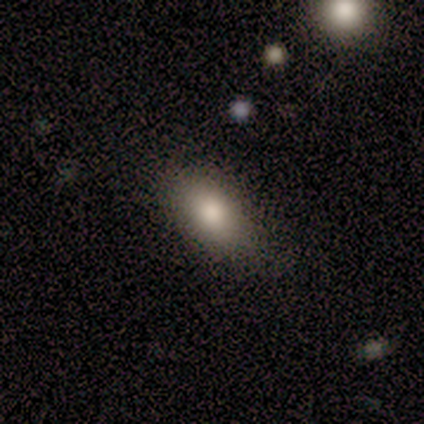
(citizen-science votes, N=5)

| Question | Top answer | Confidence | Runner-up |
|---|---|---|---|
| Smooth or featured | smooth | 80% | star or artifact (20%) |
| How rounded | in between | 50% | round (25%) |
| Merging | none | 100% | — |